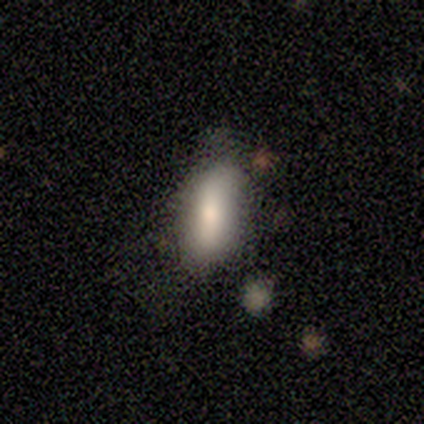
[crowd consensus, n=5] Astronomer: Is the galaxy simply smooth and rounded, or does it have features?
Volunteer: smooth — 80%.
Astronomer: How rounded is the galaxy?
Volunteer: in between — 100%.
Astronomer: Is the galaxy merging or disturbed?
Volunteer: none — 80%.